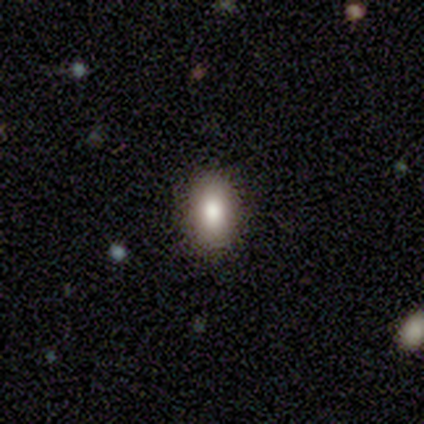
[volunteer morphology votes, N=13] smooth 85%, featured or disk 15%, star or artifact 0%. Down the decision tree: how rounded — in between (82%); merging — none (85%).